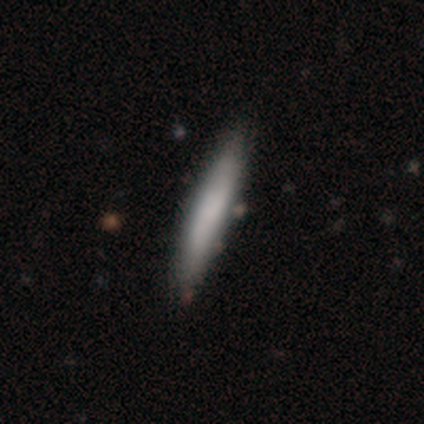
Q: Smooth or featured?
A: smooth (85%); runner-up: featured or disk (15%)
Q: How rounded?
A: cigar-shaped (97%); runner-up: in between (3%)
Q: Merging?
A: none (52%); runner-up: minor disturbance (8%)